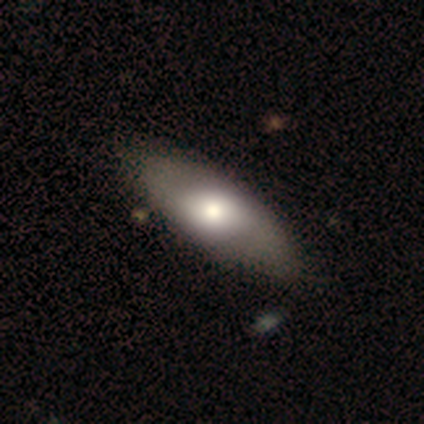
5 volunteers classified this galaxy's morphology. smooth 100%, featured or disk 0%, star or artifact 0%. Down the decision tree: how rounded — in between (100%); merging — none (80%).